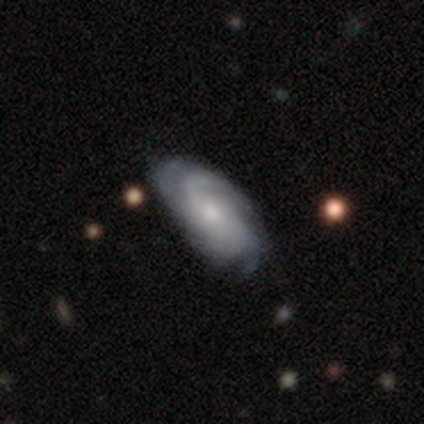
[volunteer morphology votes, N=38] Smooth or featured? featured or disk (89%)
Edge-on disk? no (91%)
Bar? no (61%)
Spiral arms? yes (100%)
Spiral winding? tight (55%)
Spiral arm count? can't tell (35%)
Bulge size? small (48%)
Merging? none (69%)